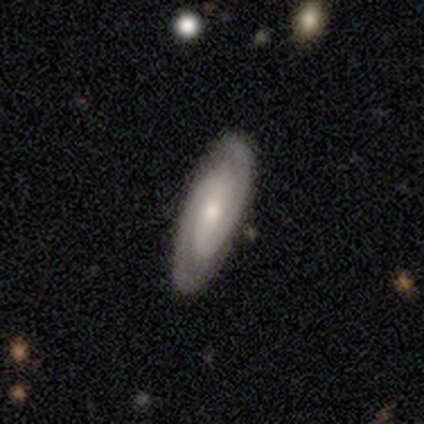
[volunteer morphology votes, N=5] This is clearly a featured or disk galaxy (80%). It is clearly not viewed edge-on (100%). Bar: likely strong (75%). Spiral arm pattern: clearly yes (100%). Spiral arm count: likely 2 (75%). Spiral winding: possibly tight (50%). Central bulge: possibly large (50%, tied with small). Merging: clearly none (80%).